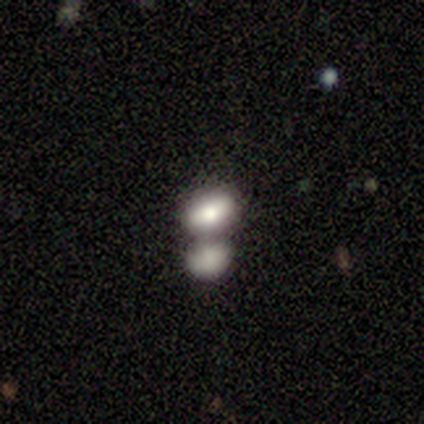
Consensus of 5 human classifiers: Overall: featured or disk (60%; smooth 40%). Edge-on disk: no (67%; yes 33%). Bar: no (100%). Spiral arms: no (100%). Bulge size: dominant (50%, tied with small). Merging: merger (80%).